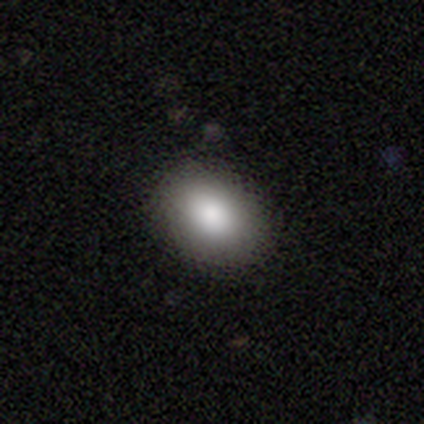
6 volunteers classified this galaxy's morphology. Smooth or featured?
  - smooth: 100% *
  - featured or disk: 0%
  - star or artifact: 0%
How rounded?
  - in between: 67% *
  - round: 33%
  - cigar-shaped: 0%
Merging?
  - none: 83% *
  - major disturbance: 17%
  - minor disturbance: 0%
  - merger: 0%